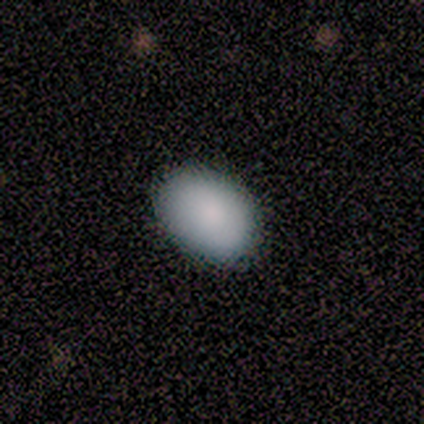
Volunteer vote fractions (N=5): This appears to be a smooth galaxy with no disk features (80%) that is in between round and cigar-shaped (75%). Merging: none (80%).